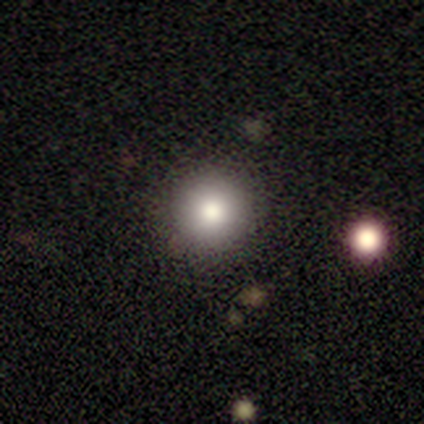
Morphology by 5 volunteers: type=smooth (80%); roundness=round (75%); merging=none (75%).